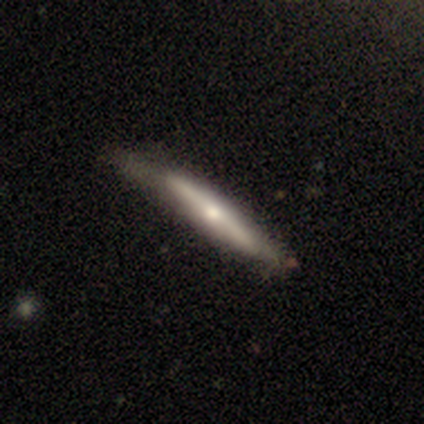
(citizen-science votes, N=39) Morphology: type=featured or disk (56%); edge-on=yes (91%); edge-on bulge=rounded (80%); merging=none (54%).